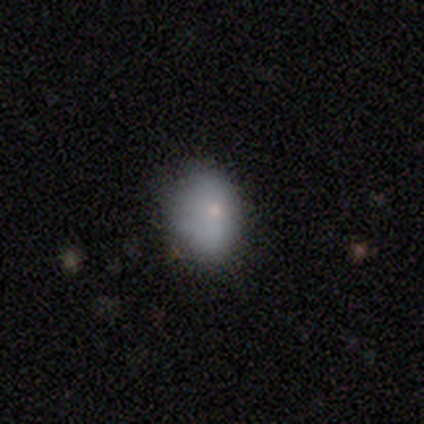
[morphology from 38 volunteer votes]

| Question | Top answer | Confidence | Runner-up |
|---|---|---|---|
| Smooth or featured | smooth | 76% | star or artifact (13%) |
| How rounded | in between | 66% | round (34%) |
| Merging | none | 73% | minor disturbance (21%) |